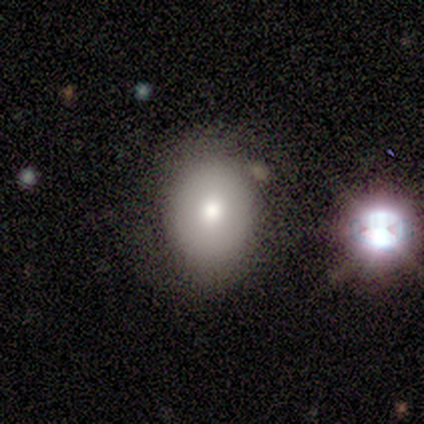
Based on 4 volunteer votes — Smooth or featured: smooth — 75% (featured or disk — 25%)
How rounded: in between — 100%
Merging: none — 75% (major disturbance — 25%)